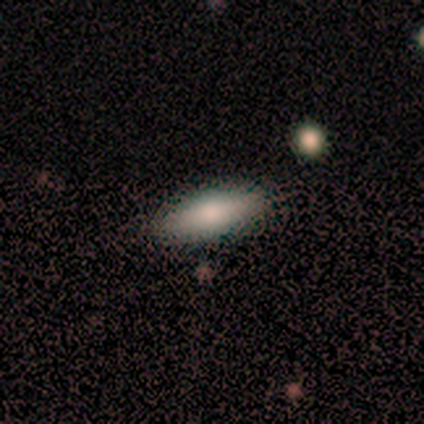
This is possibly a smooth galaxy (50%, tied with featured or disk). How rounded: clearly in between (100%). Merging: likely none (75%).